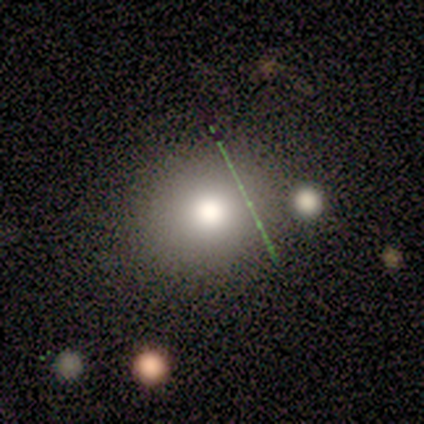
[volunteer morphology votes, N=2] Overall: smooth (50%, tied with star or artifact). How rounded: round (100%). Merging: none (100%).